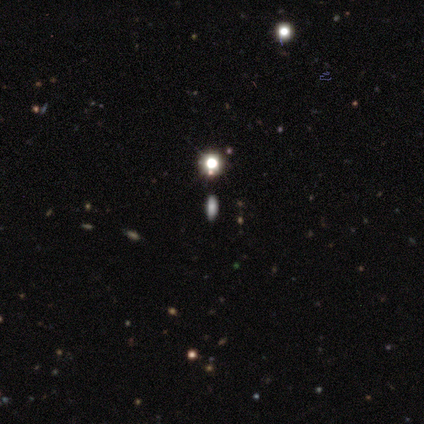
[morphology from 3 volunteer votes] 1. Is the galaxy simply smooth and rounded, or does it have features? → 100% smooth, 0% featured or disk, 0% star or artifact.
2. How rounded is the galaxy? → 67% cigar-shaped, 33% in between, 0% round.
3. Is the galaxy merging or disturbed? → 100% none, 0% minor disturbance, 0% major disturbance, 0% merger.